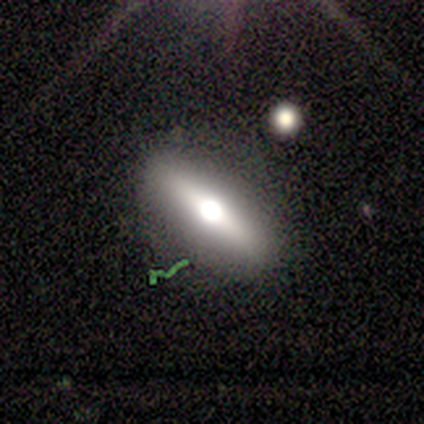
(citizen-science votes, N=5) Q: Smooth or featured?
A: featured or disk (80%); runner-up: smooth (20%)
Q: Edge-on disk?
A: yes (75%); runner-up: no (25%)
Q: Edge-on bulge?
A: rounded (100%)
Q: Merging?
A: none (80%); runner-up: minor disturbance (20%)